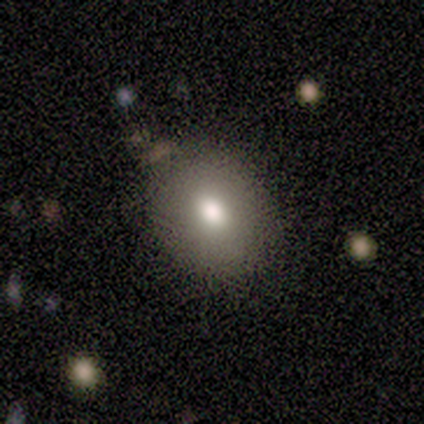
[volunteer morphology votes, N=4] Overall: smooth (50%, tied with featured or disk). How rounded: round (100%). Merging: none (100%).